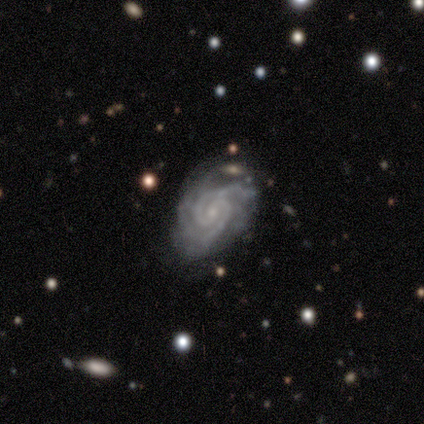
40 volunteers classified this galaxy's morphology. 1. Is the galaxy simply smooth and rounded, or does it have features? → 92% featured or disk, 5% star or artifact, 2% smooth.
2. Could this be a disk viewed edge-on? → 100% no, 0% yes.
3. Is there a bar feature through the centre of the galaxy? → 51% no, 41% weak, 8% strong.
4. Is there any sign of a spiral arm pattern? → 100% yes, 0% no.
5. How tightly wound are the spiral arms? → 62% tight, 35% medium, 3% loose.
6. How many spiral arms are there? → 49% 2, 32% 3, 8% 4, 5% more than 4, 5% can't tell, 0% 1.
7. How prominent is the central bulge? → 70% small, 24% moderate, 5% none, 0% dominant, 0% large.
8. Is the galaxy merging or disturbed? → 58% none, 26% minor disturbance, 8% major disturbance, 8% merger.